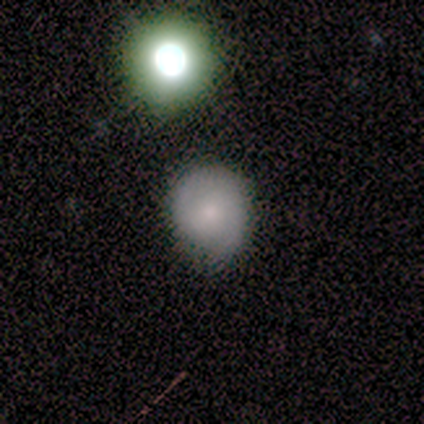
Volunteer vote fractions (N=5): Morphology: type=smooth (80%); roundness=round (75%); merging=minor disturbance (60%).